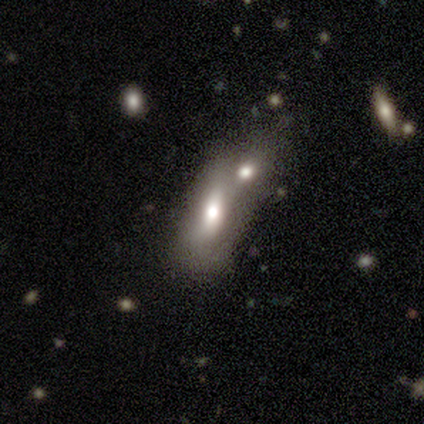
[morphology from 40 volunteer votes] Overall: smooth (65%). How rounded: in between (88%). Merging: merger (83%).